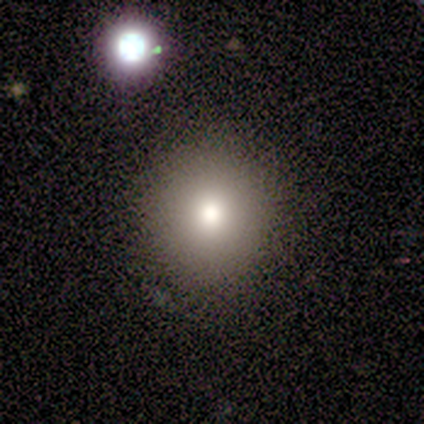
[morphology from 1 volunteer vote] smooth-or-featured: smooth: 100% | featured or disk: 0% | star or artifact: 0%
  how-rounded: round: 100% | in between: 0% | cigar-shaped: 0%
  merging: none: 100% | minor disturbance: 0% | major disturbance: 0% | merger: 0%